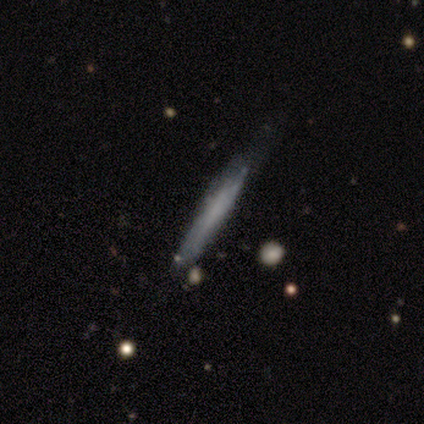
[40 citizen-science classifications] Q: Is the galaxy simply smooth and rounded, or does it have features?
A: smooth — 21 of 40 (52%).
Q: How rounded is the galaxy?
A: cigar-shaped — 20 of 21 (95%).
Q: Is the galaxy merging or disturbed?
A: none — 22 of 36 (61%).